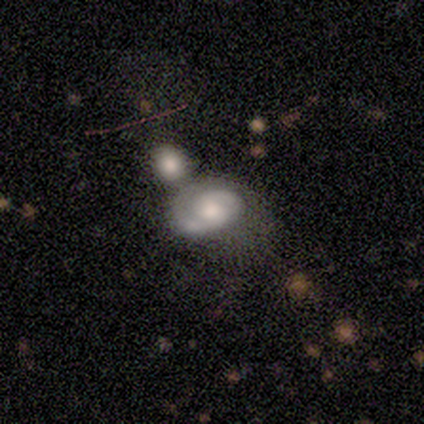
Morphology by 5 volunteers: Overall: featured or disk (100%). Edge-on disk: no (100%). Bar: no (80%). Spiral arms: yes (100%). Spiral arm count: 1 (60%; 2 40%). Spiral winding: tight (60%; medium 40%). Bulge size: dominant (20%, tied with large, moderate, small and none). Merging: minor disturbance (40%; none 20%).